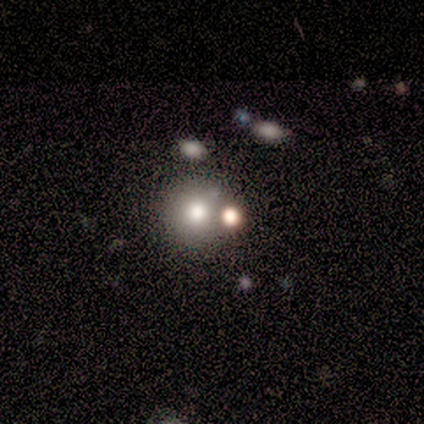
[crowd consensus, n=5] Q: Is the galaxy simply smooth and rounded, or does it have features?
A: star or artifact — 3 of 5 (60%).